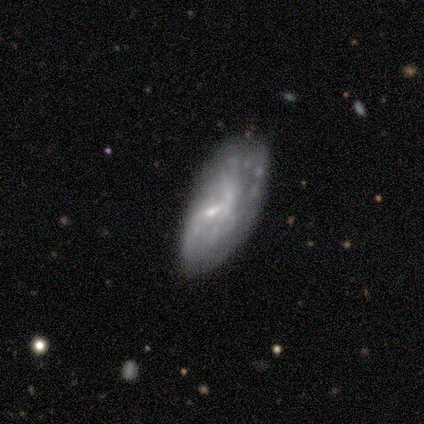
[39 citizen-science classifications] Smooth or featured?
  - featured or disk: 64% *
  - smooth: 26%
  - star or artifact: 10%
Edge-on disk?
  - no: 100% *
  - yes: 0%
Bar?
  - no: 60% *
  - weak: 36%
  - strong: 4%
Spiral arms?
  - no: 76% *
  - yes: 24%
Bulge size?
  - small: 56% *
  - none: 28%
  - moderate: 16%
  - dominant: 0%
  - large: 0%
Merging?
  - none: 46% *
  - minor disturbance: 37%
  - major disturbance: 17%
  - merger: 0%